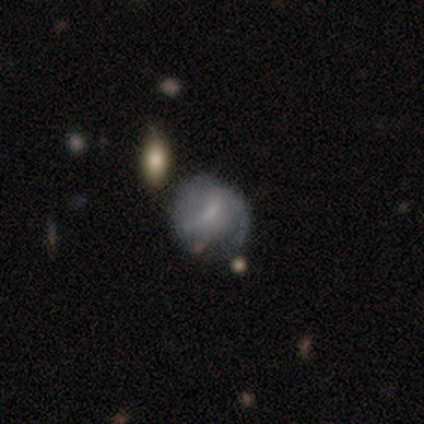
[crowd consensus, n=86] This is possibly a featured or disk galaxy (56%). It is clearly not viewed edge-on (98%). Bar: possibly weak (53%). Spiral arm pattern: possibly yes (57%). Spiral arm count: possibly 2 (56%). Spiral winding: marginally medium (44%). Central bulge: possibly none (53%). Merging: possibly none (49%).